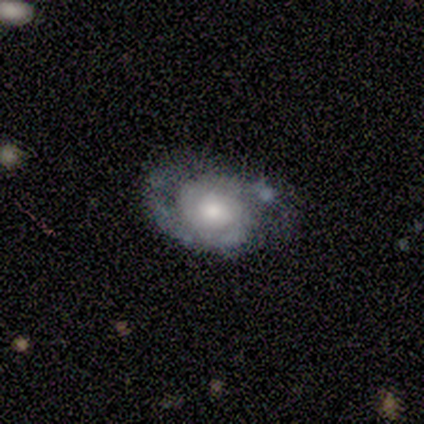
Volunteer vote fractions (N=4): smooth_or_featured: featured or disk (p=0.75) [alt: smooth p=0.25]
disk_edge_on: no (p=1.00)
bar: no (p=1.00)
has_spiral_arms: yes (p=1.00)
spiral_winding: tight (p=0.67) [alt: medium p=0.33]
spiral_arm_count: 2 (p=1.00)
bulge_size: moderate (p=0.67) [alt: small p=0.33]
merging: none (p=0.50) [alt: minor disturbance p=0.25]